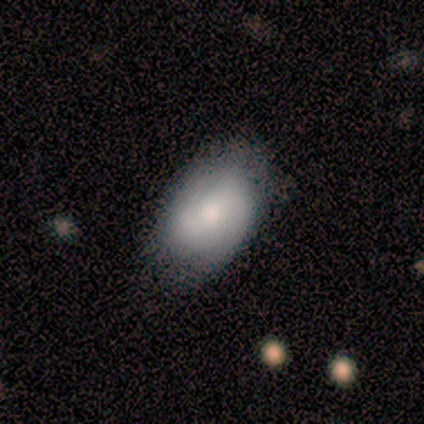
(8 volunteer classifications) Smooth or featured: smooth — 62% (featured or disk — 38%)
How rounded: in between — 100%
Merging: none — 62% (minor disturbance — 38%)